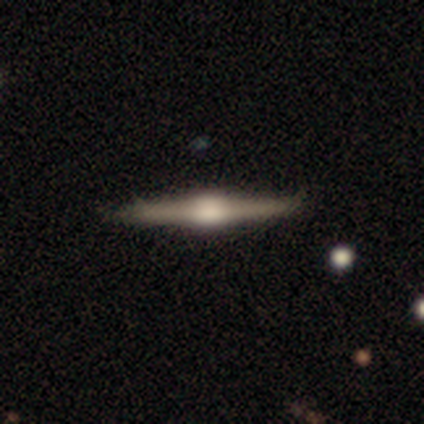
featured or disk 88%, smooth 10%, star or artifact 2%. Down the decision tree: edge-on disk — yes (100%); edge-on bulge — rounded (86%); merging — none (82%).